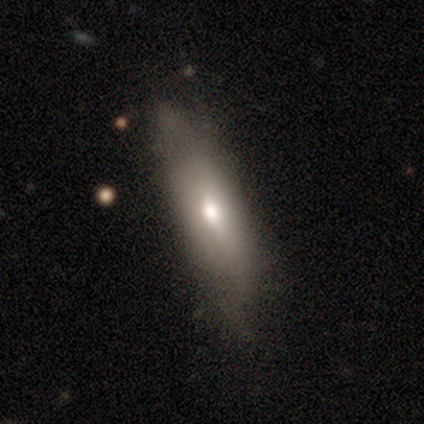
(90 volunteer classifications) Overall: smooth (64%; featured or disk 34%). How rounded: in between (53%; cigar-shaped 47%). Merging: none (53%; minor disturbance 42%).